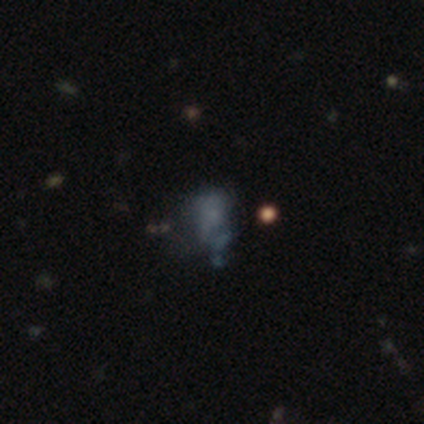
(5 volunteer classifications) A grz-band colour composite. It shows a smooth galaxy with no disk features (40%, tied with star or artifact) that is in between round and cigar-shaped (100%). Merging: none (33%, tied with major disturbance and merger).